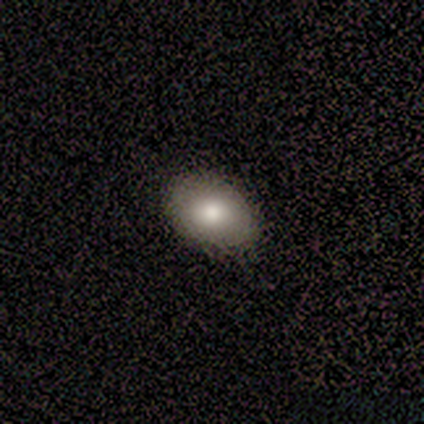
This is clearly a smooth galaxy (100%). How rounded: clearly in between (100%). Merging: likely none (60%).